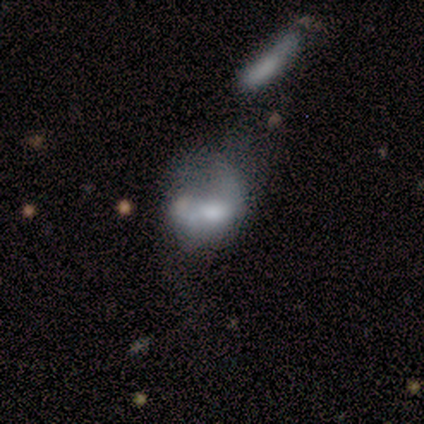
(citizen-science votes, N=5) Overall: featured or disk (60%; smooth 40%). Edge-on disk: no (100%). Bar: weak (67%; no 33%). Spiral arms: no (67%; yes 33%). Bulge size: moderate (100%). Merging: major disturbance (60%; merger 40%).